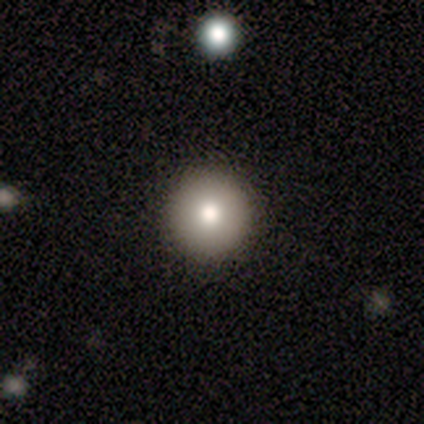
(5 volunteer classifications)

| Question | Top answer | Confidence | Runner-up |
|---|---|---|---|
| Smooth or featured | smooth | 80% | featured or disk (20%) |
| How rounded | round | 100% | — |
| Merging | none | 100% | — |